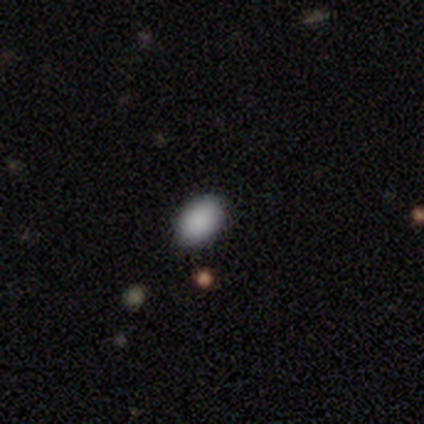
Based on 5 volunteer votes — smooth 100%, featured or disk 0%, star or artifact 0%. Down the decision tree: how rounded — in between (100%); merging — none (100%).